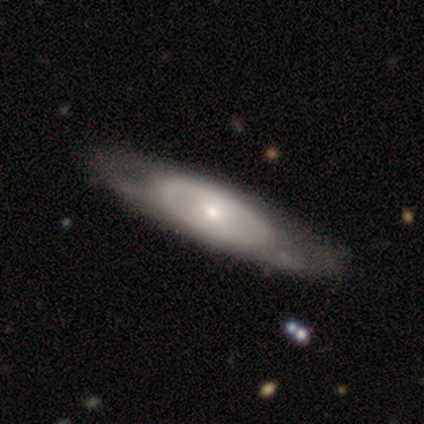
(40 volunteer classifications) smooth-or-featured: featured or disk: 65% | smooth: 35% | star or artifact: 0%
  disk-edge-on: no: 73% | yes: 27%
    bar: no: 89% | weak: 11% | strong: 0%
    has-spiral-arms: no: 79% | yes: 21%
    bulge-size: small: 84% | moderate: 11% | dominant: 5% | large: 0% | none: 0%
  merging: none: 62% | minor disturbance: 10% | merger: 5% | major disturbance: 0%